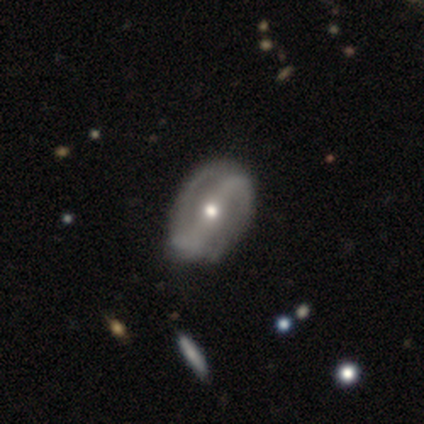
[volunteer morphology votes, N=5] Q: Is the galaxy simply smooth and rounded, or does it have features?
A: featured or disk — 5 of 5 (100%).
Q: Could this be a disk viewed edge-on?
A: no — 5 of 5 (100%).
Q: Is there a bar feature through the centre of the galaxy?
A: strong — 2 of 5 (40%, tied with no).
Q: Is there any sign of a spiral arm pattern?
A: yes — 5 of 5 (100%).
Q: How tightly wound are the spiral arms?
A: tight — 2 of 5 (40%, tied with medium).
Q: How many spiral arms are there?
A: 2 — 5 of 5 (100%).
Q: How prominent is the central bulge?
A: moderate — 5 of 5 (100%).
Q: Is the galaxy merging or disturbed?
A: none — 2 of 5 (40%).